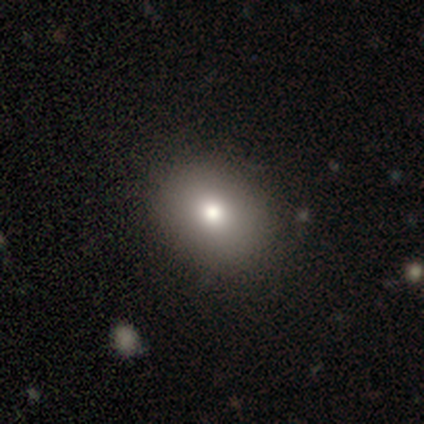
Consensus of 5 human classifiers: Morphology: type=smooth (100%); roundness=round (60%); merging=none (100%).